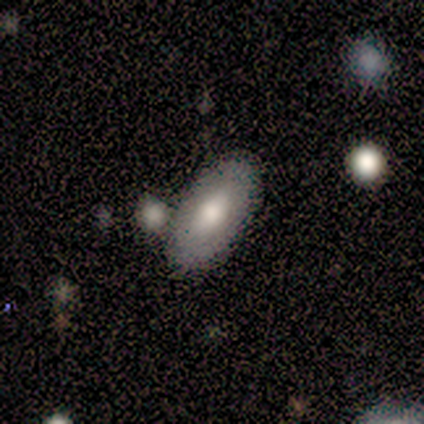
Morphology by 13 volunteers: smooth_or_featured: smooth (p=0.62) [alt: featured or disk p=0.38]
how_rounded: in between (p=1.00)
merging: none (p=0.77) [alt: minor disturbance p=0.23]